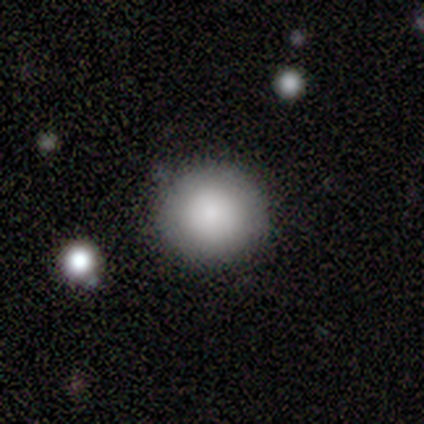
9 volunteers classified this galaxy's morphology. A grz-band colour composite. It shows a smooth galaxy with no disk features (78%) that is round (100%). Merging: none (62%).